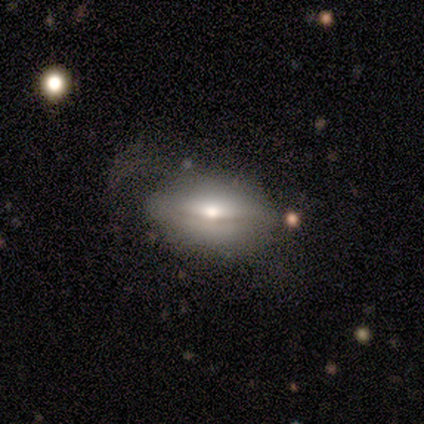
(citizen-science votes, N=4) smooth-or-featured: featured or disk: 50% | smooth: 25% | star or artifact: 25%
  disk-edge-on: yes: 100% | no: 0%
    edge-on-bulge: rounded: 100% | boxy: 0% | none: 0%
  merging: none: 100% | minor disturbance: 0% | major disturbance: 0% | merger: 0%